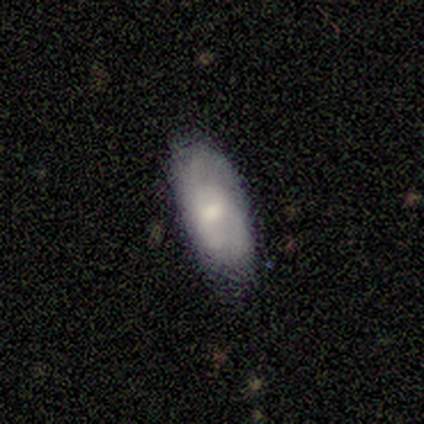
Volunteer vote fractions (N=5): smooth_or_featured: smooth (p=0.60) [alt: featured or disk p=0.40]
how_rounded: in between (p=1.00)
merging: none (p=0.80) [alt: minor disturbance p=0.20]